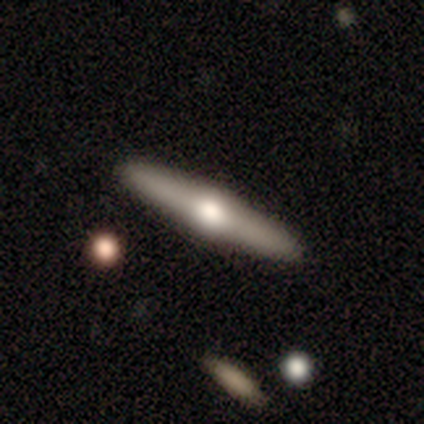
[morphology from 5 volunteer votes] Overall: featured or disk (60%; smooth 40%). Edge-on disk: yes (100%). Edge-on bulge: rounded (67%; none 33%). Merging: none (100%).